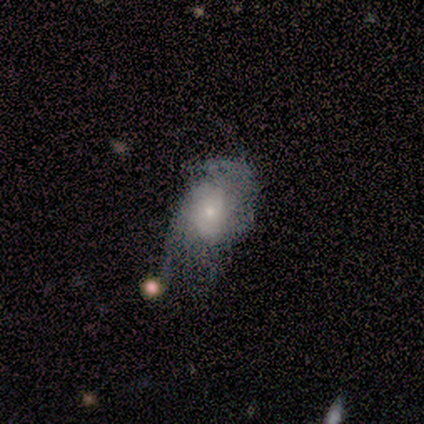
Overall: smooth (75%). How rounded: in between (67%; round 33%). Merging: minor disturbance (50%; none 25%).